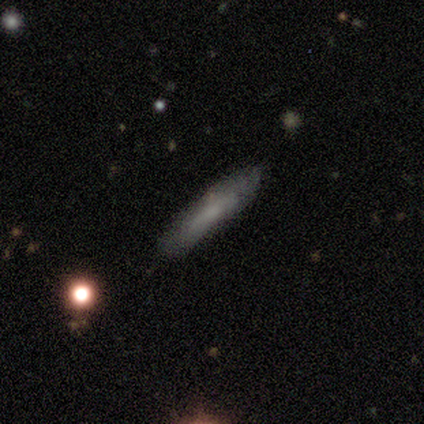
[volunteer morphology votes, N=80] Smooth or featured? 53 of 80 (66%) said smooth. How rounded? 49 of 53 (92%) said cigar-shaped. Merging? 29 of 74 (39%) said none.